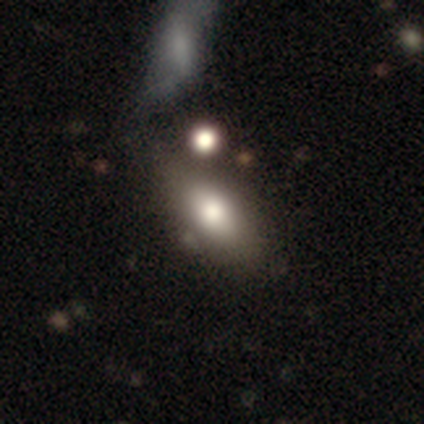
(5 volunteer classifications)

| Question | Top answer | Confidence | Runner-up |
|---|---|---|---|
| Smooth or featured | smooth | 80% | featured or disk (20%) |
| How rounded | in between | 75% | cigar-shaped (25%) |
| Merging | none | 80% | merger (20%) |